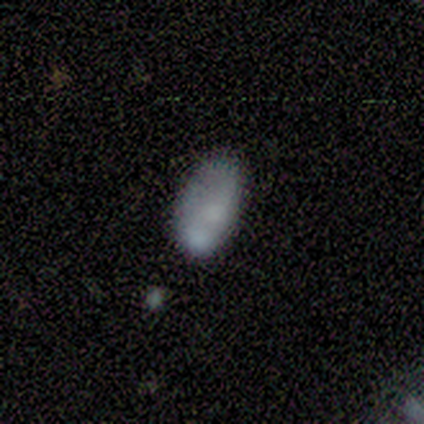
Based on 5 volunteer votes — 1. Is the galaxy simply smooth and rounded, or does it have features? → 100% smooth, 0% featured or disk, 0% star or artifact.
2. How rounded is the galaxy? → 100% in between, 0% round, 0% cigar-shaped.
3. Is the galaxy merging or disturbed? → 60% none, 20% minor disturbance, 20% merger, 0% major disturbance.